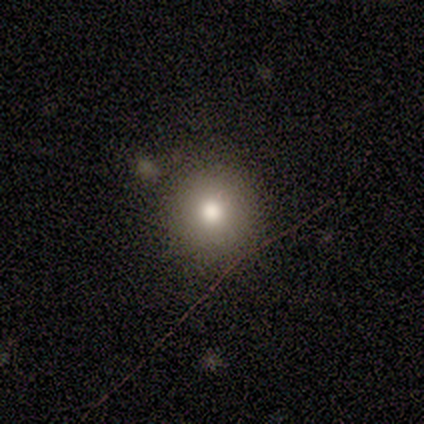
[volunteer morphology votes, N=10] Smooth or featured? star or artifact (50%)